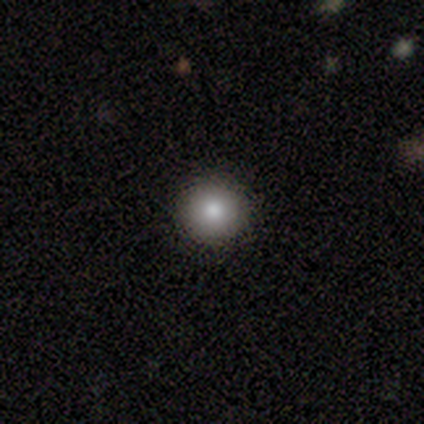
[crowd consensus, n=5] Smooth or featured? 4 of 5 (80%) said smooth. How rounded? 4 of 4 (100%) said round. Merging? 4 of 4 (100%) said none.